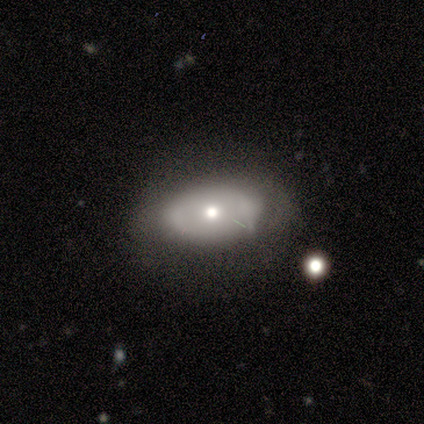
smooth-or-featured: smooth: 75% | featured or disk: 25% | star or artifact: 0%
  how-rounded: in between: 100% | round: 0% | cigar-shaped: 0%
  merging: none: 75% | minor disturbance: 25% | major disturbance: 0% | merger: 0%